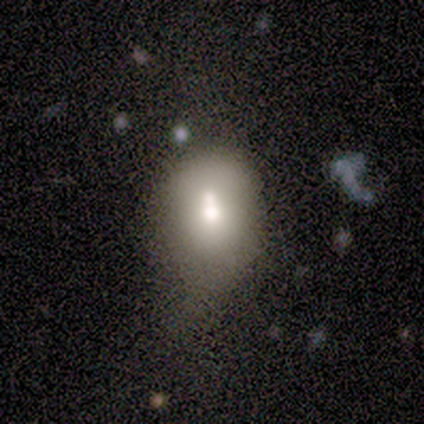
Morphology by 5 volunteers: smooth_or_featured: smooth (p=0.80) [alt: featured or disk p=0.20]
how_rounded: in between (p=1.00)
merging: none (p=0.40) [tied with: minor disturbance p=0.40]